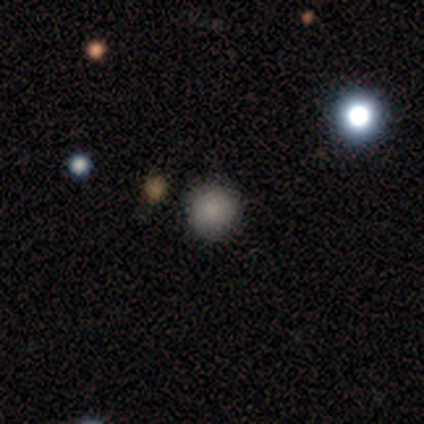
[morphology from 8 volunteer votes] smooth-or-featured: smooth: 75% | star or artifact: 25% | featured or disk: 0%
  how-rounded: round: 100% | in between: 0% | cigar-shaped: 0%
  merging: none: 100% | minor disturbance: 0% | major disturbance: 0% | merger: 0%